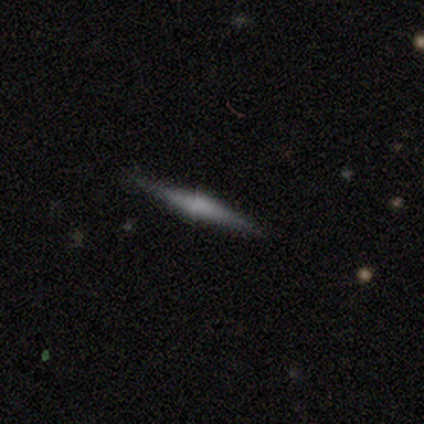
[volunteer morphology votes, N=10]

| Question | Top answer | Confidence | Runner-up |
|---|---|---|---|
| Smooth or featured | smooth | 40% | tied: featured or disk (40%) |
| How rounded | cigar-shaped | 100% | — |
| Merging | none | 100% | — |